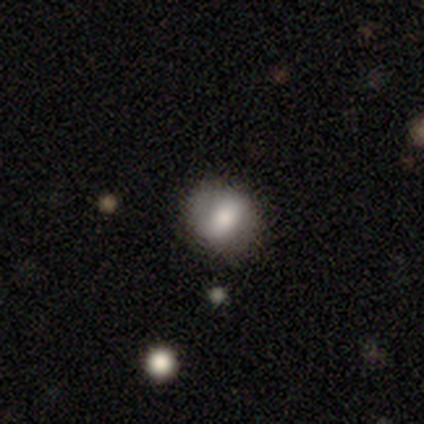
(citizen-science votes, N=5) Q: Smooth or featured?
A: smooth (60%); runner-up: featured or disk (20%)
Q: How rounded?
A: in between (67%); runner-up: round (33%)
Q: Merging?
A: none (75%); runner-up: minor disturbance (25%)